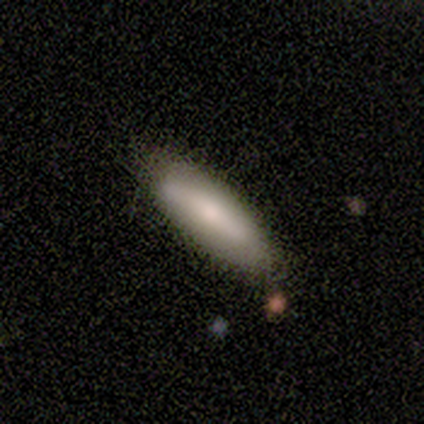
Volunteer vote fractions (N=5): smooth_or_featured: smooth (p=0.80) [alt: featured or disk p=0.20]
how_rounded: cigar-shaped (p=0.75) [alt: in between p=0.25]
merging: none (p=0.80) [alt: major disturbance p=0.20]